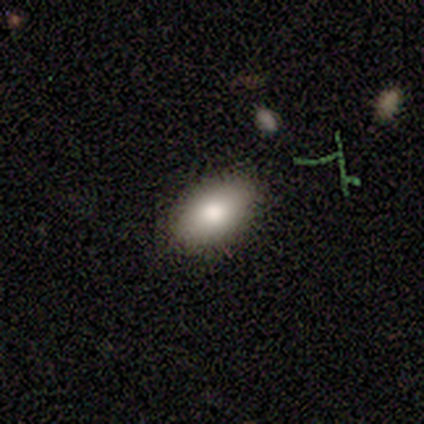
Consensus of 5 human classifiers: This is likely a smooth galaxy (60%). How rounded: clearly in between (100%). Merging: clearly none (100%).